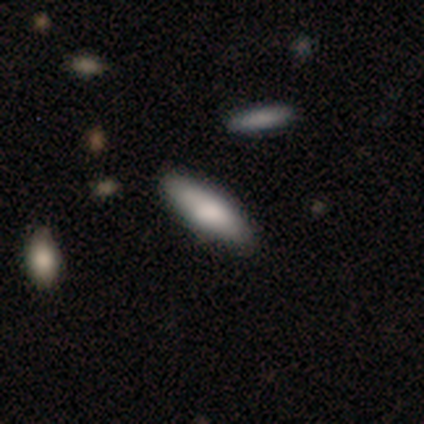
Smooth or featured?
  - smooth: 80% *
  - featured or disk: 20%
  - star or artifact: 0%
How rounded?
  - in between: 50% * (tied)
  - cigar-shaped: 50% * (tied)
  - round: 0%
Merging?
  - none: 60% *
  - minor disturbance: 40%
  - major disturbance: 0%
  - merger: 0%